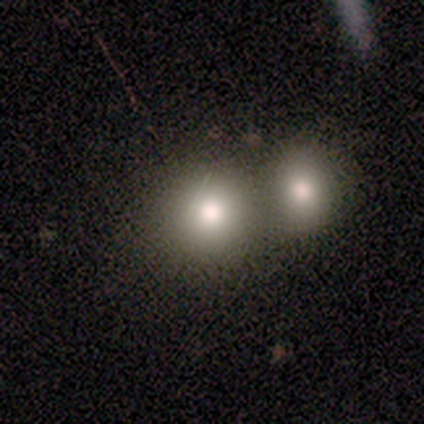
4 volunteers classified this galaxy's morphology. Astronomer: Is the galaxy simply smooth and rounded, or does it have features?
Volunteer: smooth — 75%.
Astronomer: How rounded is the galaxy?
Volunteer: in between — 67%.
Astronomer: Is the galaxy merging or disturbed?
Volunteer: merger — 67%.